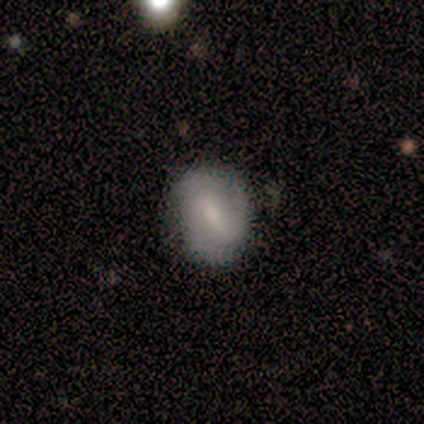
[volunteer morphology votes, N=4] smooth-or-featured: smooth: 50% | featured or disk: 25% | star or artifact: 25%
  how-rounded: in between: 100% | round: 0% | cigar-shaped: 0%
  merging: none: 100% | minor disturbance: 0% | major disturbance: 0% | merger: 0%